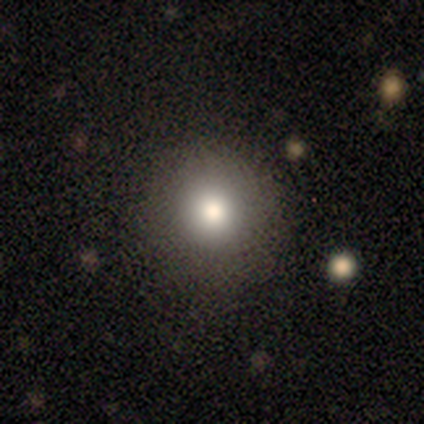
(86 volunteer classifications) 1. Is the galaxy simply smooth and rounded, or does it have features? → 69% smooth, 20% star or artifact, 12% featured or disk.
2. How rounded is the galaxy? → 95% round, 5% in between, 0% cigar-shaped.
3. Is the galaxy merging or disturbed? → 87% none, 7% minor disturbance, 6% major disturbance, 0% merger.